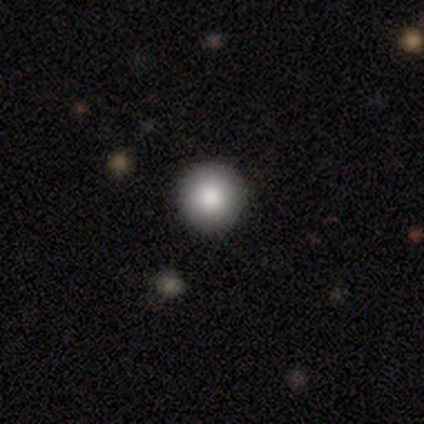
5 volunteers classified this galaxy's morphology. A smooth galaxy with no disk features (80%) that is round (100%). Merging: none (100%).